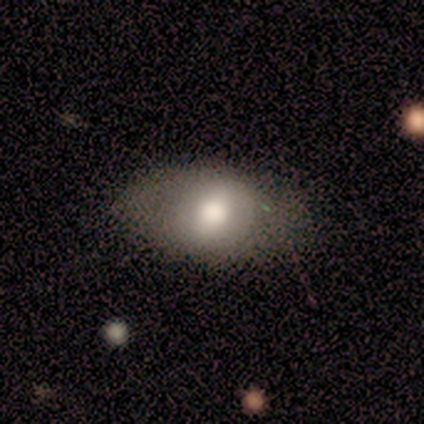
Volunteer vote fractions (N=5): Smooth or featured? smooth (60%)
How rounded? in between (100%)
Merging? none (50%, tied with minor disturbance)